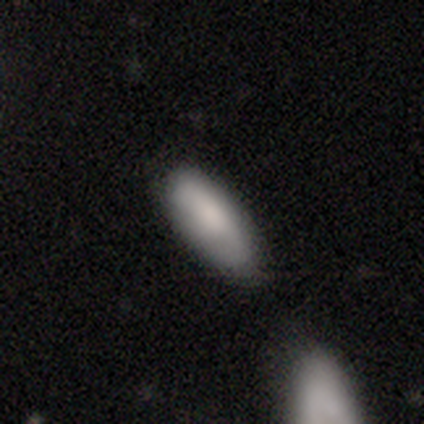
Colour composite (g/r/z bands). It shows a smooth galaxy with no disk features (83%) that is in between round and cigar-shaped (71%). Merging: none (51%).